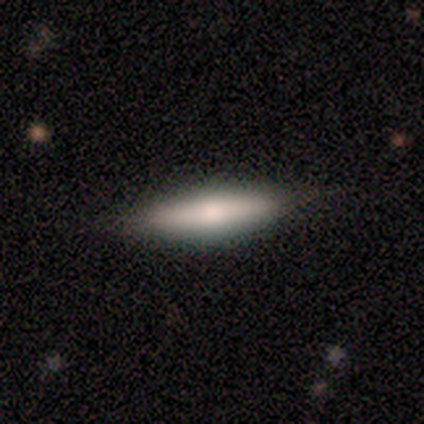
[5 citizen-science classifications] smooth-or-featured: featured or disk: 80% | smooth: 20% | star or artifact: 0%
  disk-edge-on: yes: 100% | no: 0%
    edge-on-bulge: rounded: 100% | boxy: 0% | none: 0%
  merging: none: 100% | minor disturbance: 0% | major disturbance: 0% | merger: 0%